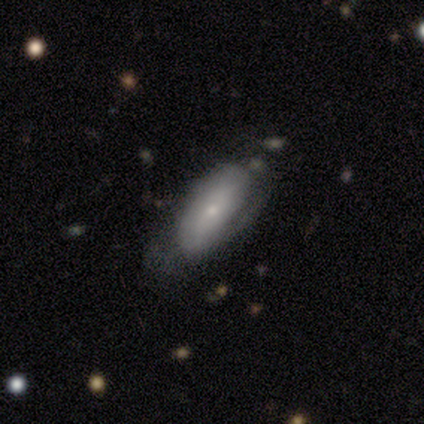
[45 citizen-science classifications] A smooth galaxy with no disk features (67%) that is in between round and cigar-shaped (77%). Merging: none (65%).